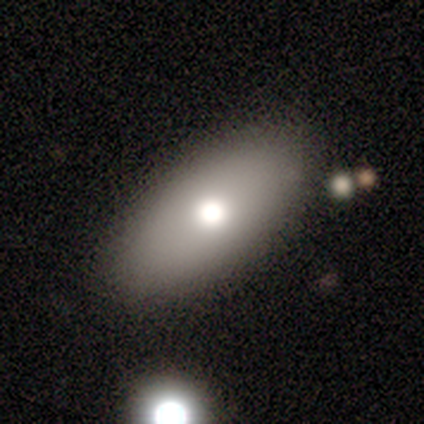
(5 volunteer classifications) smooth 40% (tied), featured or disk 40% (tied), star or artifact 20%. Down the decision tree: how rounded — in between (100%); merging — none (100%).